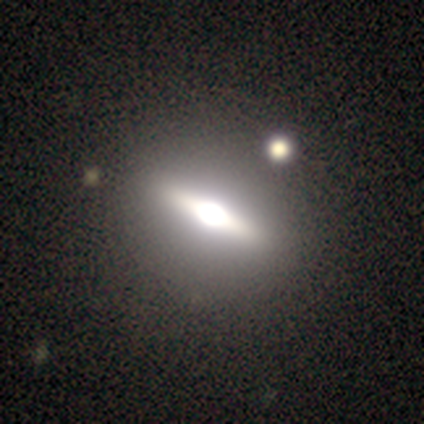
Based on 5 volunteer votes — smooth-or-featured: star or artifact: 60% | featured or disk: 40% | smooth: 0%